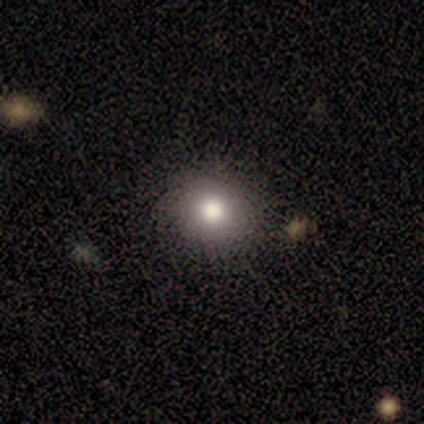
Smooth or featured? 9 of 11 (82%) said smooth. How rounded? 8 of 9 (89%) said round. Merging? 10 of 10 (100%) said none.